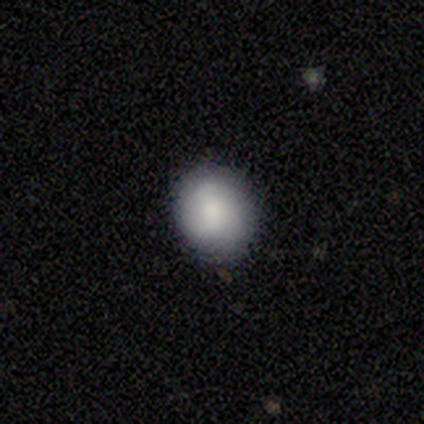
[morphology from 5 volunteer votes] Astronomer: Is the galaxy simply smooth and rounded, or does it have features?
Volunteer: smooth — 60% (runner-up: featured or disk, 40%).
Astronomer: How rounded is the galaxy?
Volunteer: in between — 67%.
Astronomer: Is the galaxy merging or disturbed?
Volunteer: none — 80%.